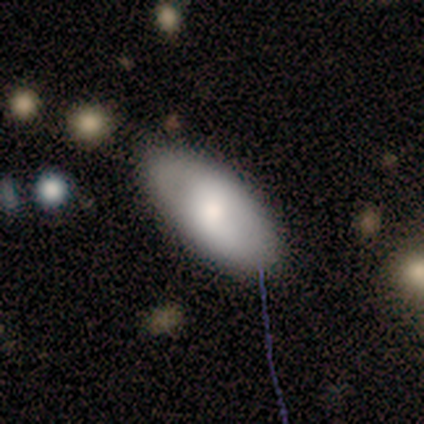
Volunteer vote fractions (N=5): This appears to be a smooth galaxy with no disk features (100%) that is in between round and cigar-shaped (80%). Merging: none (40%, tied with minor disturbance).